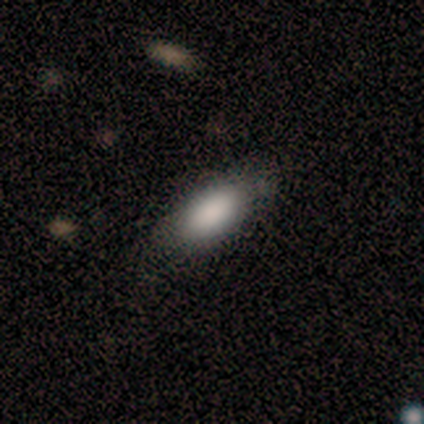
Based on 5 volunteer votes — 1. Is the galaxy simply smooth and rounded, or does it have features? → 80% smooth, 20% featured or disk, 0% star or artifact.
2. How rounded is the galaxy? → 75% in between, 25% cigar-shaped, 0% round.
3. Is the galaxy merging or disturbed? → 60% none, 20% minor disturbance, 20% major disturbance, 0% merger.